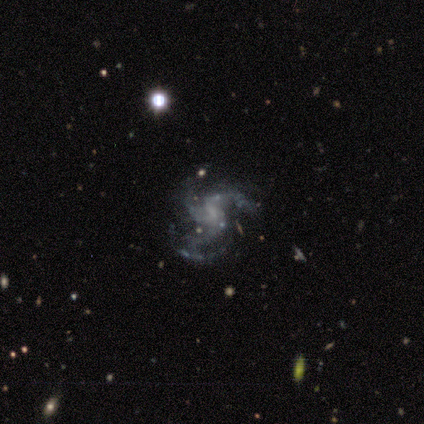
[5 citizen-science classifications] Smooth or featured? 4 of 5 (80%) said featured or disk. Edge-on disk? 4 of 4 (100%) said no. Bar? 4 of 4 (100%) said weak. Spiral arms? 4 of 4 (100%) said yes. Spiral winding? 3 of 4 (75%) said medium. Spiral arm count? 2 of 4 (50%, tied with 4) said 3. Bulge size? 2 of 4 (50%) said small. Merging? 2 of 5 (40%, tied with major disturbance) said minor disturbance.